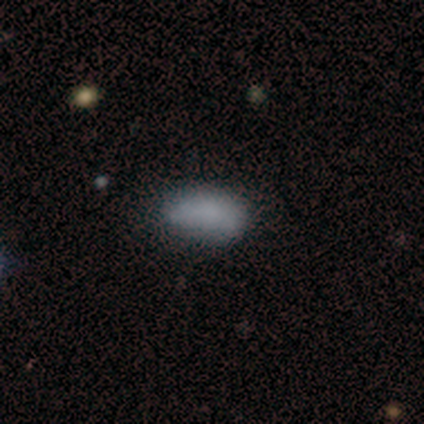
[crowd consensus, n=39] This is clearly a smooth galaxy (87%). How rounded: clearly in between (97%). Merging: likely none (66%).